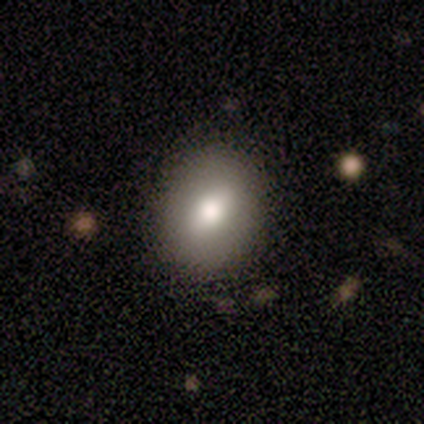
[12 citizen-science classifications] This appears to be a smooth galaxy with no disk features (92%) that is in between round and cigar-shaped (64%). Merging: none (100%).